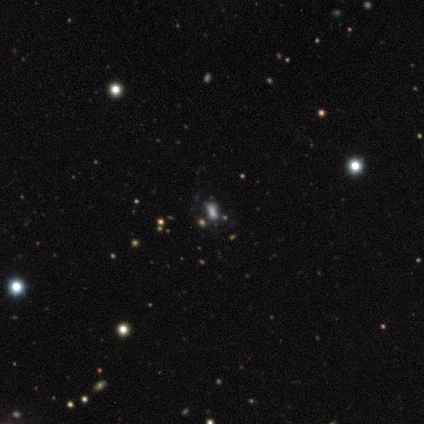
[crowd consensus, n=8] Morphology: type=star or artifact (75%).